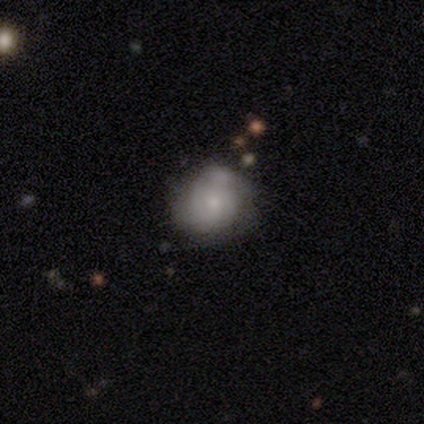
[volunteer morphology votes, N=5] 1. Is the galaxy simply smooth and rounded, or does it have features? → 60% smooth, 40% featured or disk, 0% star or artifact.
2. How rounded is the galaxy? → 67% in between, 33% round, 0% cigar-shaped.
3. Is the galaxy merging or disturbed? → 60% minor disturbance, 40% none, 0% major disturbance, 0% merger.